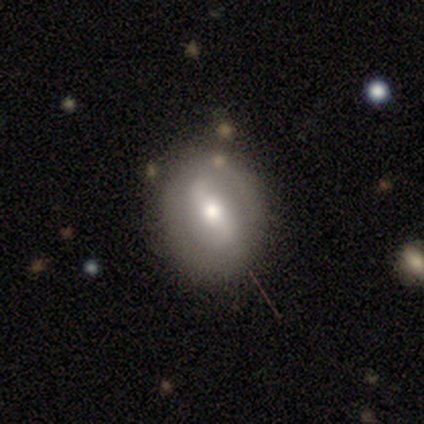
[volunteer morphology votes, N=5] This appears to be a smooth galaxy with no disk features (60%) that is round (100%). Merging: none (100%).